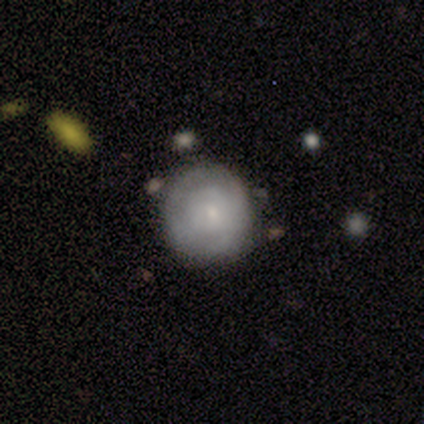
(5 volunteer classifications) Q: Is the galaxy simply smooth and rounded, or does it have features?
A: featured or disk — 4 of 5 (80%).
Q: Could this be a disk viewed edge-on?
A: no — 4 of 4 (100%).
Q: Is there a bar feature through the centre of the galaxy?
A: no — 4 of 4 (100%).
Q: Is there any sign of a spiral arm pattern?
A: yes — 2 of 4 (50%, tied with no).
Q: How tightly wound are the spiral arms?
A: tight — 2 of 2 (100%).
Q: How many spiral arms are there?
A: can't tell — 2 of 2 (100%).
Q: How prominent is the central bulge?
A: small — 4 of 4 (100%).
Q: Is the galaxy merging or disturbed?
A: none — 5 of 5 (100%).